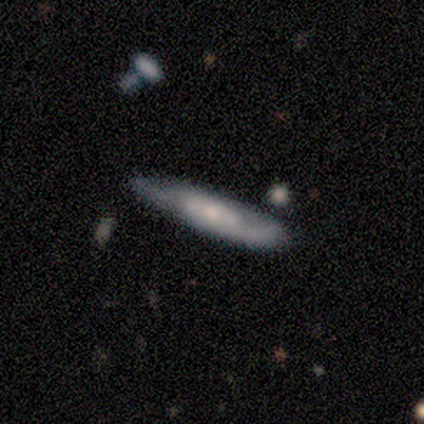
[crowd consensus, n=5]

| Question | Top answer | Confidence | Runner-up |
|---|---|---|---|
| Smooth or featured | featured or disk | 60% | smooth (40%) |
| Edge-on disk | yes | 67% | no (33%) |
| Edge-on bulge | rounded | 100% | — |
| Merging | none | 100% | — |